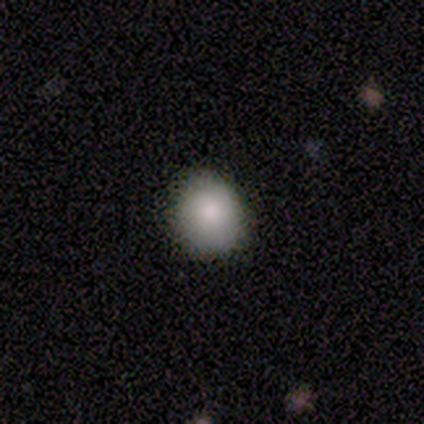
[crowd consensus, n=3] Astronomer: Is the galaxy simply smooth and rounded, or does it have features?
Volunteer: smooth — 67%.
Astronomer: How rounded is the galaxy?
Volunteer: round — 100%.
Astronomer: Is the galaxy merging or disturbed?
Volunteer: none — 67%.